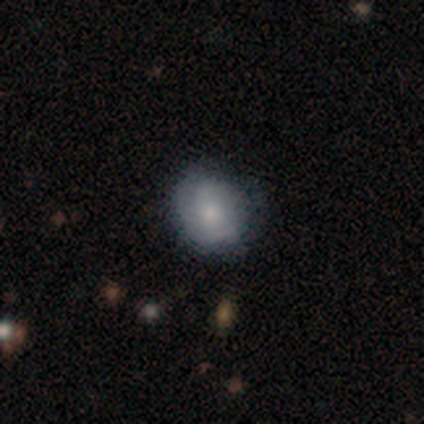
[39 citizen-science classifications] Smooth or featured? smooth (82%)
How rounded? round (66%)
Merging? none (70%)